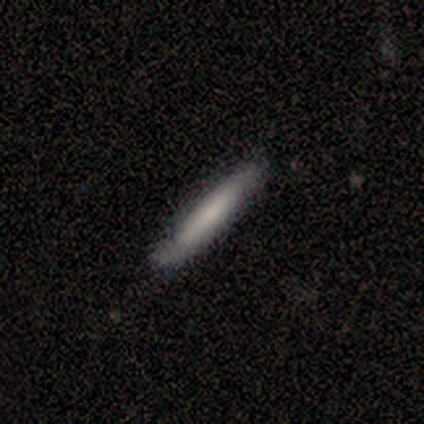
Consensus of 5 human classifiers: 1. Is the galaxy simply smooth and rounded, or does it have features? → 60% smooth, 40% featured or disk, 0% star or artifact.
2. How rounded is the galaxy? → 100% cigar-shaped, 0% round, 0% in between.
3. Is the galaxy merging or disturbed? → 60% minor disturbance, 40% none, 0% major disturbance, 0% merger.